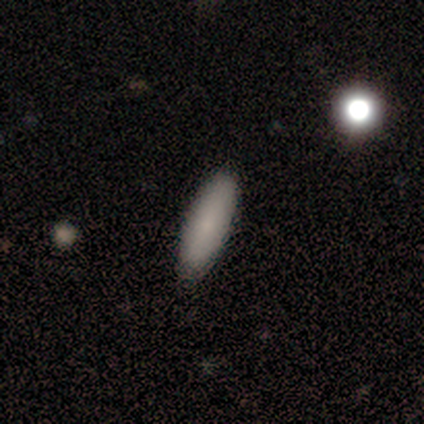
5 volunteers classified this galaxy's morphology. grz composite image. It shows a smooth galaxy with no disk features (80%) that is in between round and cigar-shaped (50%, tied with cigar-shaped). Merging: none (60%).